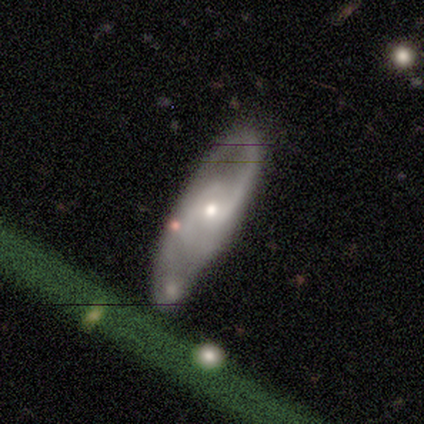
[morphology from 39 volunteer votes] Smooth or featured?
  - featured or disk: 87% *
  - smooth: 8%
  - star or artifact: 5%
Edge-on disk?
  - no: 97% *
  - yes: 3%
Bar?
  - no: 61% *
  - weak: 36%
  - strong: 3%
Spiral arms?
  - yes: 94% *
  - no: 6%
Spiral winding?
  - medium: 39% *
  - loose: 32%
  - tight: 29%
Spiral arm count?
  - 2: 74% *
  - can't tell: 16%
  - 3: 6%
  - 1: 3%
  - 4: 0%
  - more than 4: 0%
Bulge size?
  - small: 55% *
  - moderate: 36%
  - dominant: 6%
  - large: 3%
  - none: 0%
Merging?
  - none: 78% *
  - minor disturbance: 16%
  - major disturbance: 3%
  - merger: 3%